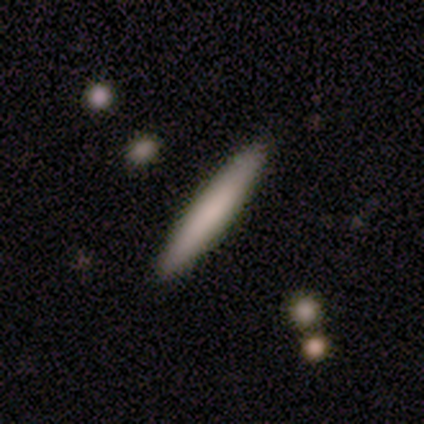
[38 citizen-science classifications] Q: Smooth or featured?
A: smooth (68%); runner-up: featured or disk (24%)
Q: How rounded?
A: cigar-shaped (100%)
Q: Merging?
A: none (91%); runner-up: minor disturbance (6%)